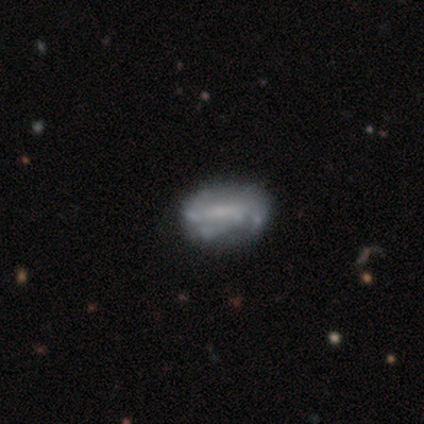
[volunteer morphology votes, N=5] Smooth or featured: featured or disk — 60% (smooth — 40%)
Edge-on disk: no — 100%
Bar: no — 67% (strong — 33%)
Spiral arms: yes — 100%
Spiral winding: loose — 67% (medium — 33%)
Spiral arm count: 2 — 33% (tied with 3 — 33%; 4 — 33%)
Bulge size: small — 67% (none — 33%)
Merging: minor disturbance — 60% (none — 40%)